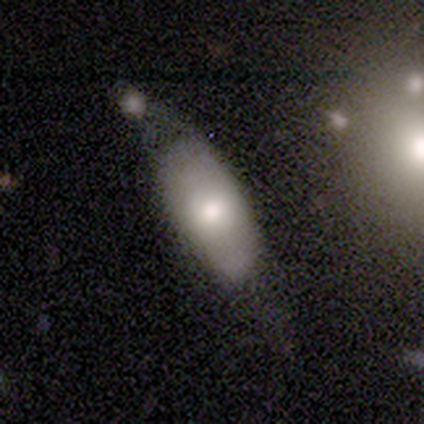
smooth-or-featured: smooth: 60% | featured or disk: 40% | star or artifact: 0%
  how-rounded: in between: 100% | round: 0% | cigar-shaped: 0%
  merging: none: 80% | minor disturbance: 20% | major disturbance: 0% | merger: 0%